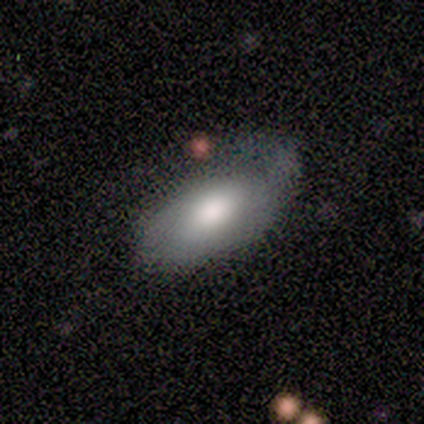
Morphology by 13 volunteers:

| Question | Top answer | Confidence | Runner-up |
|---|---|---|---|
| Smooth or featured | smooth | 69% | featured or disk (31%) |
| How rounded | in between | 89% | cigar-shaped (11%) |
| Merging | none | 46% | minor disturbance (31%) |